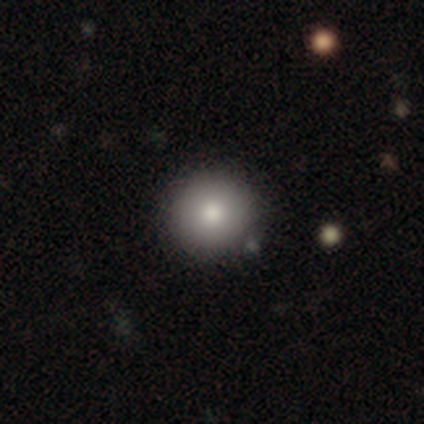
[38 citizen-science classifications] smooth 79%, star or artifact 16%, featured or disk 5%. Down the decision tree: how rounded — round (93%); merging — none (81%).